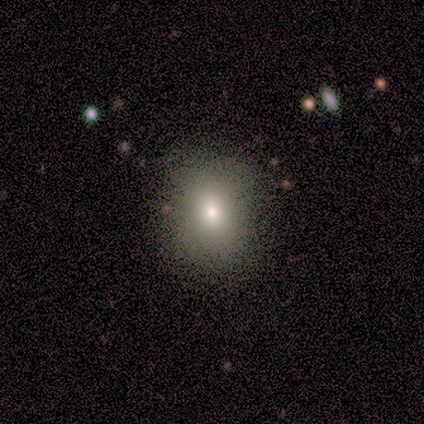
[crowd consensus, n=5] Smooth or featured? 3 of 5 (60%) said smooth. How rounded? 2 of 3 (67%) said in between. Merging? 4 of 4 (100%) said none.